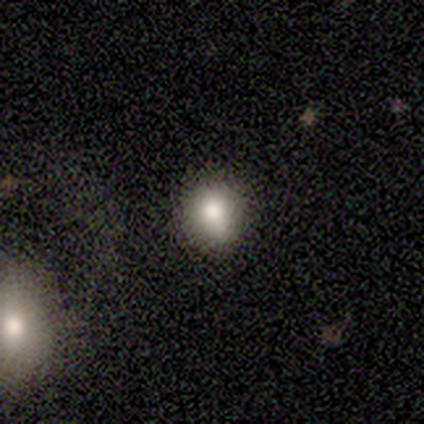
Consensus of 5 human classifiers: A smooth galaxy with no disk features (80%) that is in between round and cigar-shaped (75%).

Vote fractions:
- Smooth or featured? smooth: 80% / star or artifact: 20% / featured or disk: 0%
- How rounded? in between: 75% / round: 25% / cigar-shaped: 0%
- Merging? minor disturbance: 75% / none: 25% / major disturbance: 0% / merger: 0%